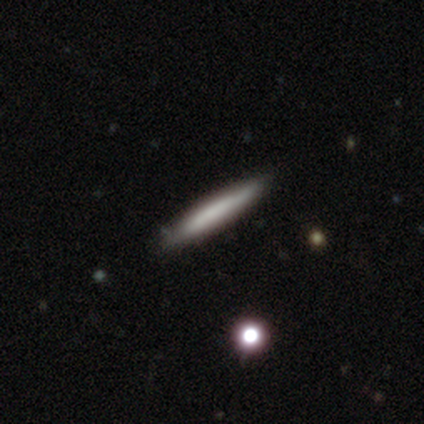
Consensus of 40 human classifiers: A smooth galaxy with no disk features (60%) that is cigar-shaped (96%). Merging: none (45%).